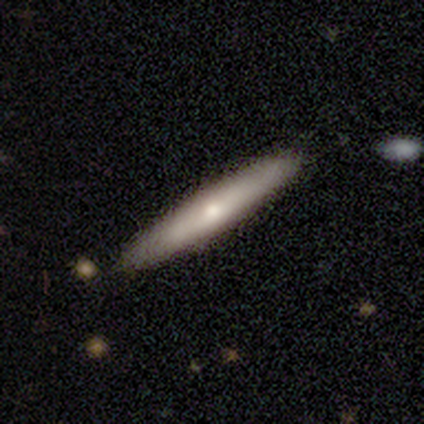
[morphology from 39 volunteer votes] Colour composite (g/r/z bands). It shows a featured or disk galaxy (54%) viewed edge-on (95%) with a rounded central bulge (70%). Merging: none (92%).